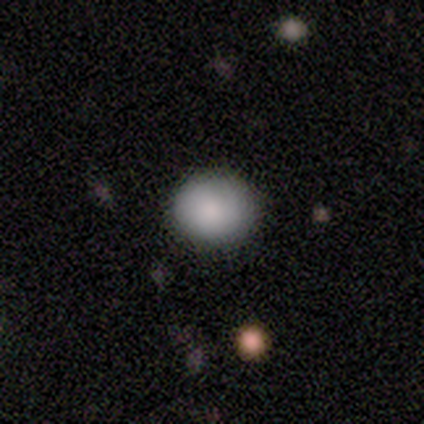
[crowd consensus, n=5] Smooth or featured? smooth (80%)
How rounded? round (75%)
Merging? none (60%)